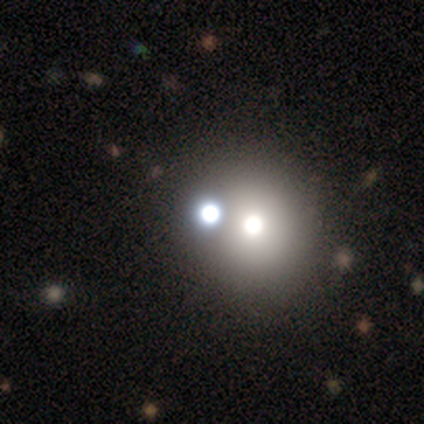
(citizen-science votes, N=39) Smooth or featured? 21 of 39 (54%) said star or artifact.